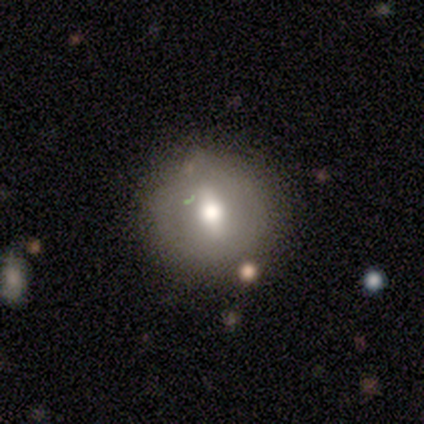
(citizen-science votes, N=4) smooth_or_featured: smooth (p=1.00)
how_rounded: round (p=0.50) [tied with: in between p=0.50]
merging: none (p=1.00)